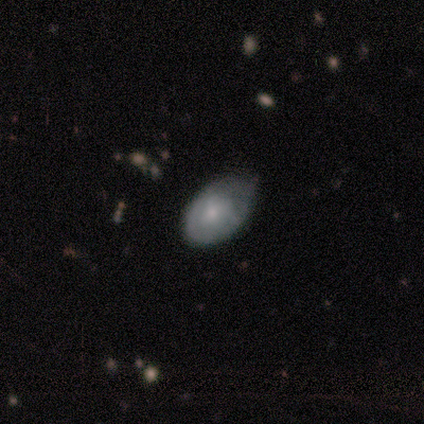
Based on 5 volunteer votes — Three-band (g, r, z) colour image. It shows a featured or disk galaxy (80%) with no bar (75%), no spiral arms (75%) and a moderate central bulge (50%, tied with small). Merging: minor disturbance (60%).